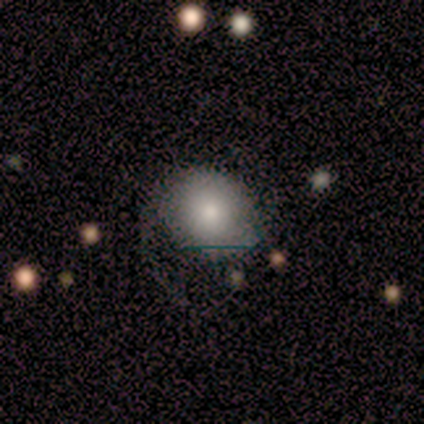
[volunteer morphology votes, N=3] This is clearly a smooth galaxy (100%). How rounded: clearly round (100%). Merging: likely minor disturbance (67%).